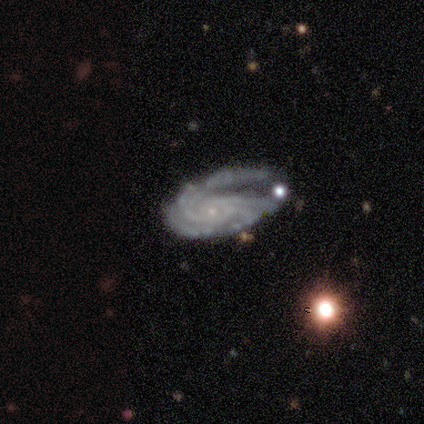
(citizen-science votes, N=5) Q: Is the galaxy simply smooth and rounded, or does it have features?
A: featured or disk — 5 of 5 (100%).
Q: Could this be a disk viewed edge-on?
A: no — 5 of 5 (100%).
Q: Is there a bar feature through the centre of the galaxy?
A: no — 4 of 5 (80%).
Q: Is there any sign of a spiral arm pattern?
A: yes — 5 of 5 (100%).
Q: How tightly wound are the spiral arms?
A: tight — 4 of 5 (80%).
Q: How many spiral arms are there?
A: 1 — 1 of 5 (20%, tied with 3, 4, more than 4 and can't tell).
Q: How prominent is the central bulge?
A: small — 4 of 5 (80%).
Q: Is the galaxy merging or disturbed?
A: none — 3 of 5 (60%).